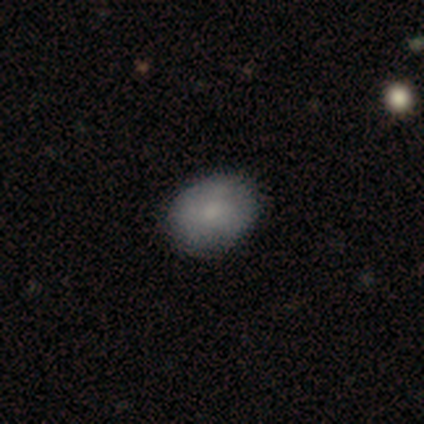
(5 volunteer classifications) A smooth galaxy with no disk features (80%) that is in between round and cigar-shaped (100%).

Vote fractions:
- Smooth or featured? smooth: 80% / featured or disk: 20% / star or artifact: 0%
- How rounded? in between: 100% / round: 0% / cigar-shaped: 0%
- Merging? none: 60% / minor disturbance: 40% / major disturbance: 0% / merger: 0%